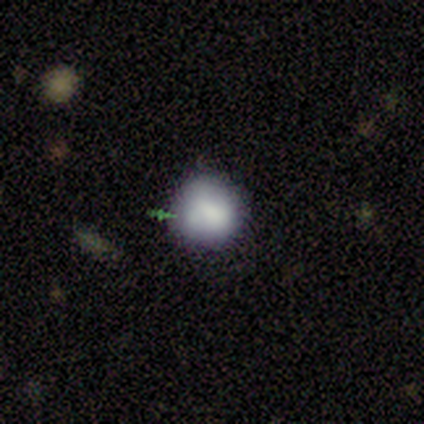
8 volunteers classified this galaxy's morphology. Smooth or featured: smooth — 88% (star or artifact — 12%)
How rounded: round — 100%
Merging: none — 71% (minor disturbance — 14%)